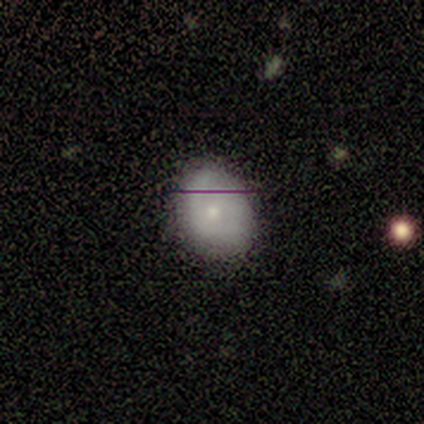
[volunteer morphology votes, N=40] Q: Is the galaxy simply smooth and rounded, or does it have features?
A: smooth — 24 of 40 (60%).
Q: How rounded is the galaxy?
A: round — 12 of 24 (50%, tied with in between).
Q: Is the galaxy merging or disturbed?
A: none — 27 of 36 (75%).